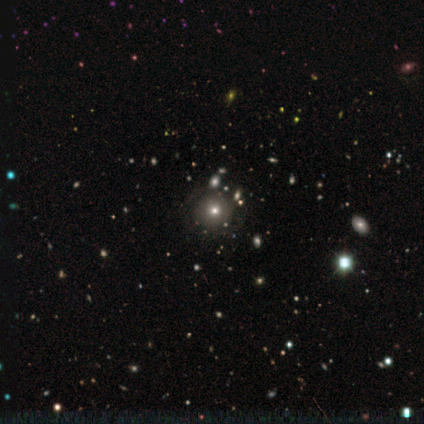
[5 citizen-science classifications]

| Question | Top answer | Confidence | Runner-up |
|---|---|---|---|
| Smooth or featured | smooth | 80% | star or artifact (20%) |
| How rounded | round | 75% | in between (25%) |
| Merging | none | 100% | — |